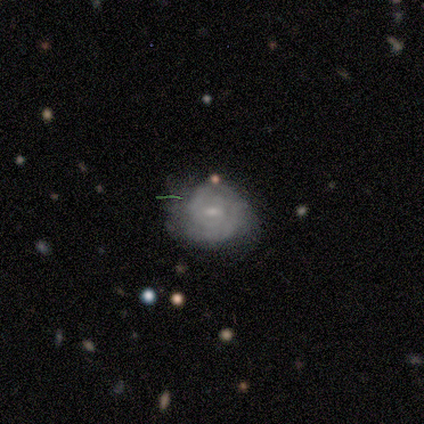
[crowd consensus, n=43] Smooth or featured? featured or disk (72%)
Edge-on disk? no (97%)
Bar? weak (70%)
Spiral arms? yes (90%)
Spiral winding? tight (70%)
Spiral arm count? 2 (52%)
Bulge size? small (63%)
Merging? none (51%)